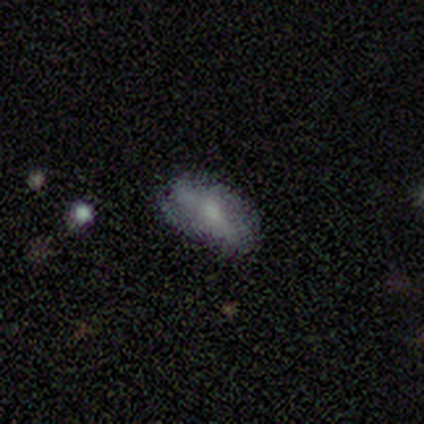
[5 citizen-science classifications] smooth 80%, featured or disk 20%, star or artifact 0%. Down the decision tree: how rounded — in between (100%); merging — none (80%).